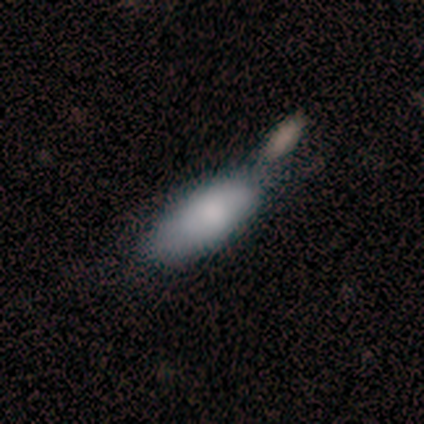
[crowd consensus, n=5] Smooth or featured?
  - smooth: 60% *
  - featured or disk: 40%
  - star or artifact: 0%
How rounded?
  - in between: 67% *
  - cigar-shaped: 33%
  - round: 0%
Merging?
  - minor disturbance: 40% * (tied)
  - merger: 40% * (tied)
  - none: 20%
  - major disturbance: 0%